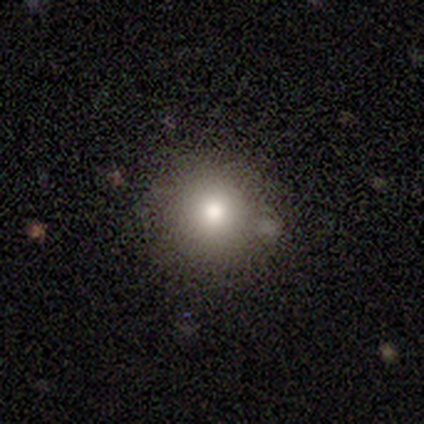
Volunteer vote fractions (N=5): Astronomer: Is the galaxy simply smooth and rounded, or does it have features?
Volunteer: smooth — 80%.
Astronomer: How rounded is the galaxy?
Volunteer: round — 100%.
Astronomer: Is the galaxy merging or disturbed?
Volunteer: none — 100%.